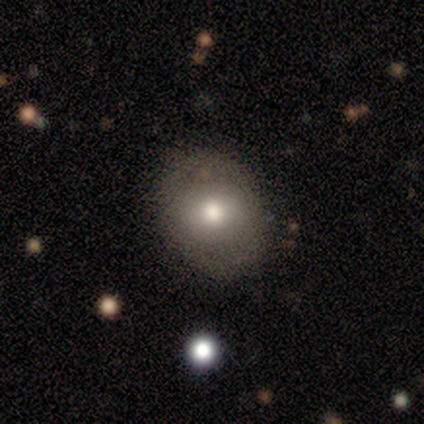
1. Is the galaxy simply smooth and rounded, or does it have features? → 100% featured or disk, 0% smooth, 0% star or artifact.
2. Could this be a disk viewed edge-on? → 100% no, 0% yes.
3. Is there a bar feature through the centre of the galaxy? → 100% no, 0% strong, 0% weak.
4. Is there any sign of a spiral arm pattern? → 100% no, 0% yes.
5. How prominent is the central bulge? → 100% moderate, 0% dominant, 0% large, 0% small, 0% none.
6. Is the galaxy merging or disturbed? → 50% none (tied), 50% minor disturbance (tied), 0% major disturbance, 0% merger.